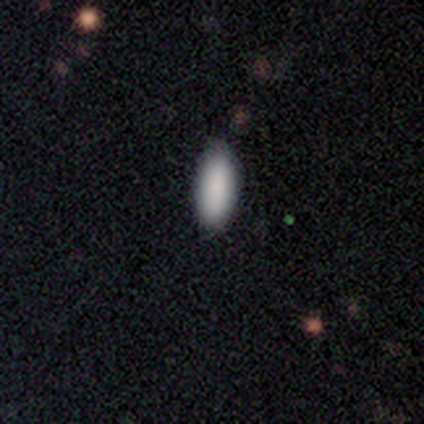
This is clearly a smooth galaxy (100%). How rounded: clearly in between (80%). Merging: clearly none (100%).